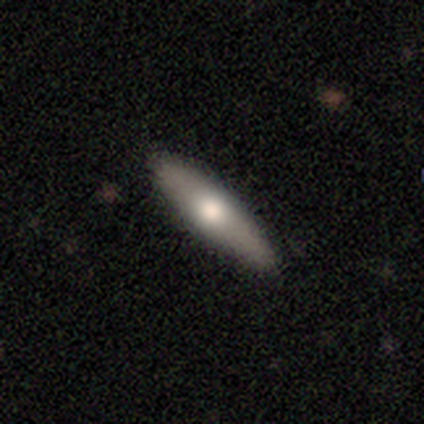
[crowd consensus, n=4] smooth_or_featured: featured or disk (p=0.75) [alt: smooth p=0.25]
disk_edge_on: yes (p=0.67) [alt: no p=0.33]
edge_on_bulge: rounded (p=1.00)
merging: none (p=1.00)